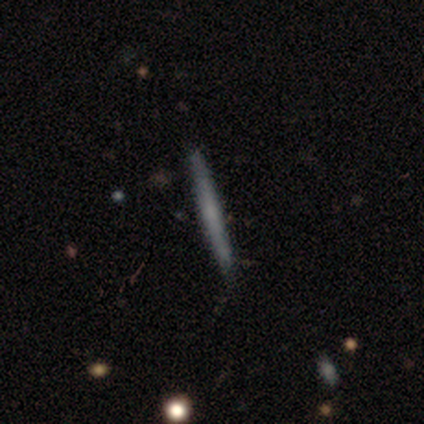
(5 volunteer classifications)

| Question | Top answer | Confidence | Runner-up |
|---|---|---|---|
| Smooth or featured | smooth | 80% | featured or disk (20%) |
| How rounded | cigar-shaped | 100% | — |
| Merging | none | 100% | — |